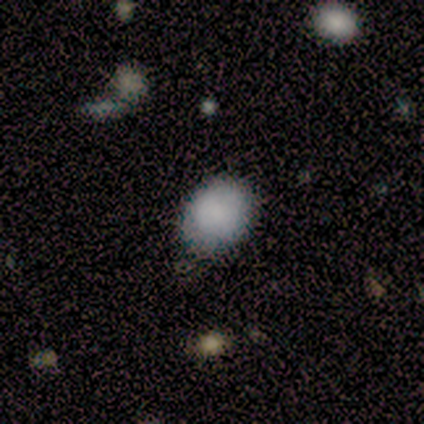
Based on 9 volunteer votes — A smooth galaxy with no disk features (100%) that is round (56%).

Vote fractions:
- Smooth or featured? smooth: 100% / featured or disk: 0% / star or artifact: 0%
- How rounded? round: 56% / in between: 44% / cigar-shaped: 0%
- Merging? none: 67% / minor disturbance: 33% / major disturbance: 0% / merger: 0%